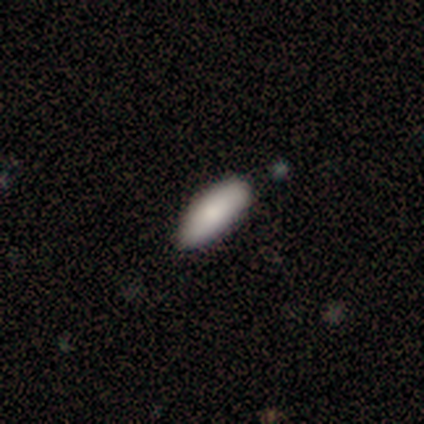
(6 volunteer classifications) Morphology: type=smooth (83%); roundness=in between (60%); merging=none (100%).